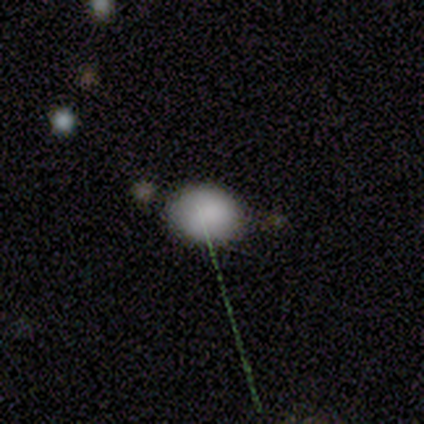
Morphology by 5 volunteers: smooth-or-featured: smooth: 80% | star or artifact: 20% | featured or disk: 0%
  how-rounded: round: 75% | in between: 25% | cigar-shaped: 0%
  merging: minor disturbance: 75% | none: 25% | major disturbance: 0% | merger: 0%